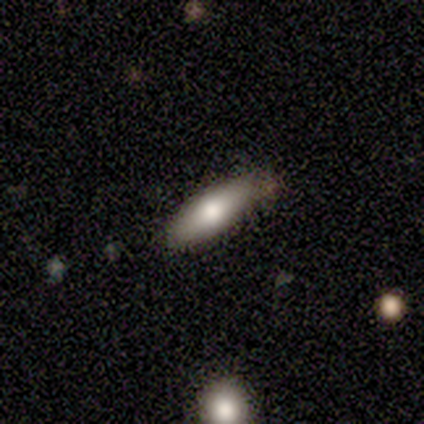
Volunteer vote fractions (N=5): Q: Smooth or featured?
A: smooth (60%); runner-up: featured or disk (20%)
Q: How rounded?
A: cigar-shaped (67%); runner-up: in between (33%)
Q: Merging?
A: none (100%)